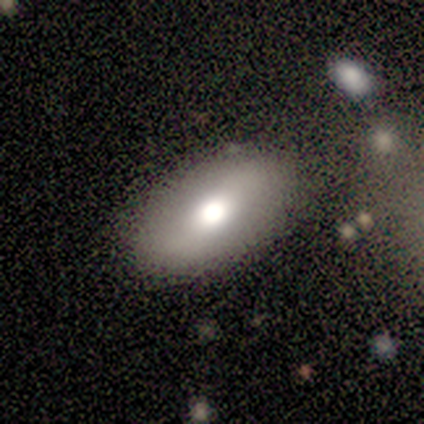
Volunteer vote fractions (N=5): smooth-or-featured: smooth: 40% (tied) | featured or disk: 40% (tied) | star or artifact: 20%
  how-rounded: in between: 100% | round: 0% | cigar-shaped: 0%
  merging: none: 100% | minor disturbance: 0% | major disturbance: 0% | merger: 0%